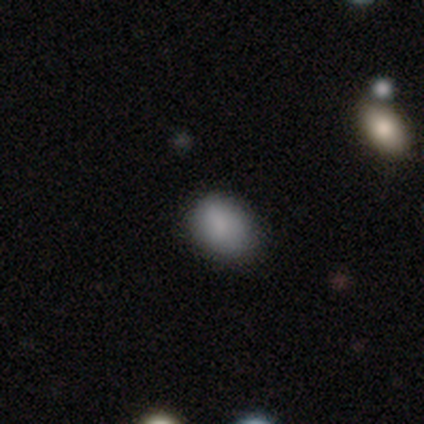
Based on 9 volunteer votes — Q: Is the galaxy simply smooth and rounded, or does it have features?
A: smooth — 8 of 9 (89%).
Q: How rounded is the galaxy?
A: in between — 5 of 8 (62%).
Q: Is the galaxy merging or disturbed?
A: none — 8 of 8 (100%).